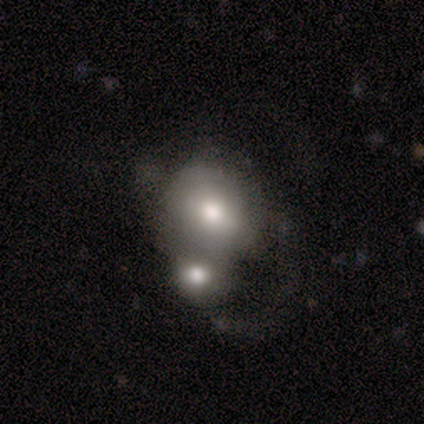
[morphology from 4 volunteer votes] This appears to be a smooth galaxy with no disk features (50%) that is round (50%, tied with in between). Merging: merger (100%).